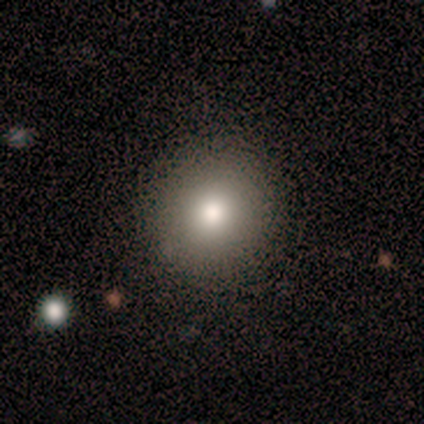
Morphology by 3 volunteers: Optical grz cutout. It shows a smooth galaxy with no disk features (33%, tied with featured or disk and star or artifact) that is round (100%). Merging: none (100%).